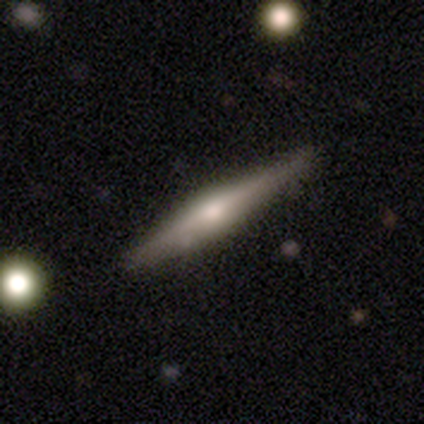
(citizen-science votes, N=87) A featured or disk galaxy (70%) viewed edge-on (100%) with a rounded central bulge (84%).

Vote fractions:
- Smooth or featured? featured or disk: 70% / smooth: 25% / star or artifact: 5%
- Edge-on disk? yes: 100% / no: 0%
- Edge-on bulge? rounded: 84% / none: 10% / boxy: 7%
- Merging? none: 82% / minor disturbance: 16% / major disturbance: 2% / merger: 0%